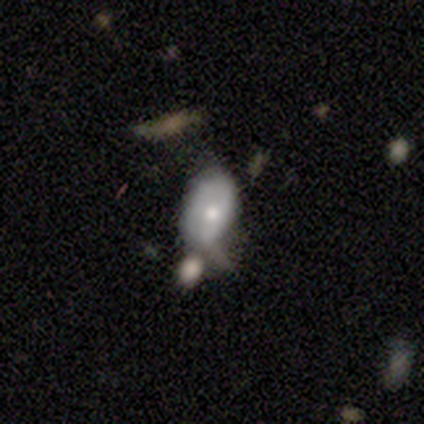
smooth 80%, featured or disk 20%, star or artifact 0%. Down the decision tree: how rounded — in between (100%); merging — none (40%, tied with minor disturbance).